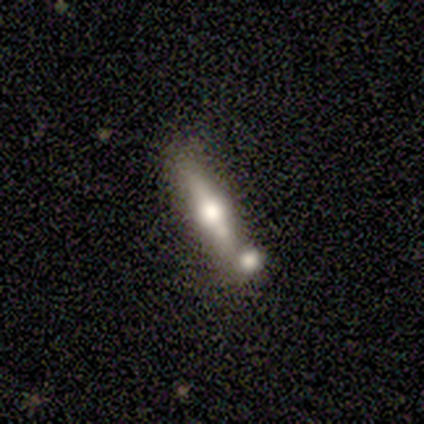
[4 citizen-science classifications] A smooth galaxy with no disk features (75%) that is cigar-shaped (67%). Merging: none (50%, tied with merger).